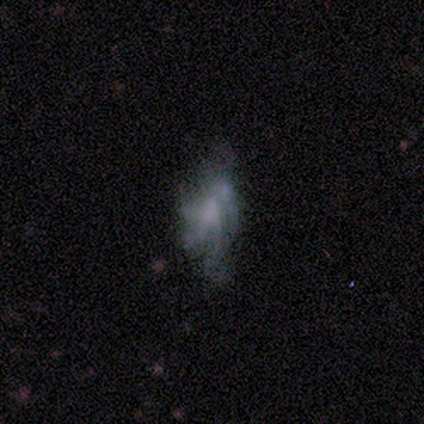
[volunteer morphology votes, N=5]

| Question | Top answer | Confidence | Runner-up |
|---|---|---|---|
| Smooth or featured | smooth | 60% | featured or disk (40%) |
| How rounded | in between | 67% | cigar-shaped (33%) |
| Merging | none | 80% | major disturbance (20%) |